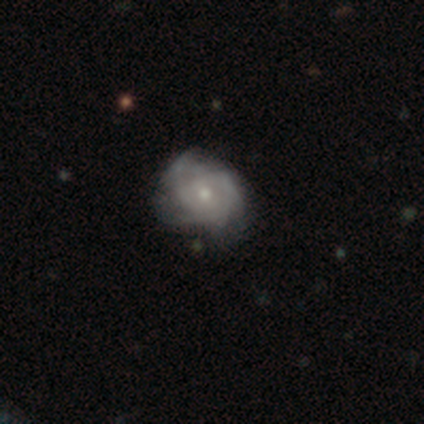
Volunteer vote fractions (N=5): Overall: featured or disk (100%). Edge-on disk: no (100%). Bar: no (100%). Spiral arms: yes (60%; no 40%). Spiral arm count: 2 (67%; 3 33%). Spiral winding: tight (67%; medium 33%). Bulge size: moderate (60%; small 40%). Merging: none (60%; minor disturbance 20%).